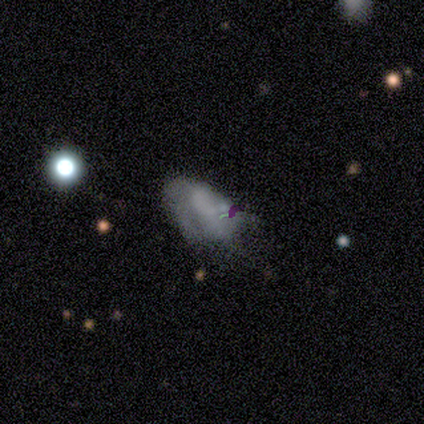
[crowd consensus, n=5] Overall: smooth (40%, tied with featured or disk). How rounded: in between (100%). Merging: none (50%, tied with major disturbance).